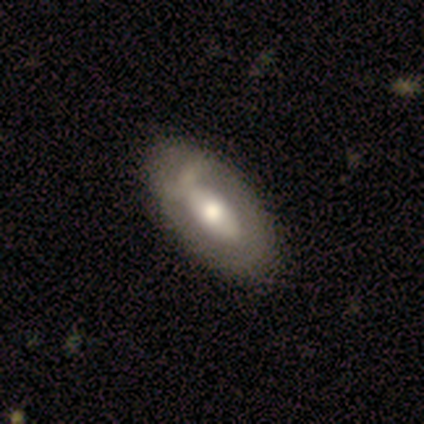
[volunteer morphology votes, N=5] Smooth or featured? featured or disk (60%)
Edge-on disk? no (100%)
Bar? no (100%)
Spiral arms? no (100%)
Bulge size? large (67%)
Merging? none (100%)